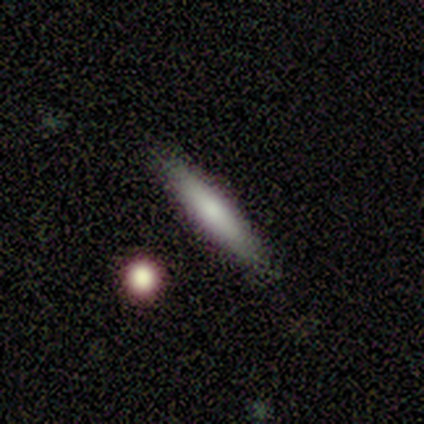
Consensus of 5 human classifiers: smooth 80%, star or artifact 20%, featured or disk 0%. Down the decision tree: how rounded — cigar-shaped (75%); merging — none (100%).